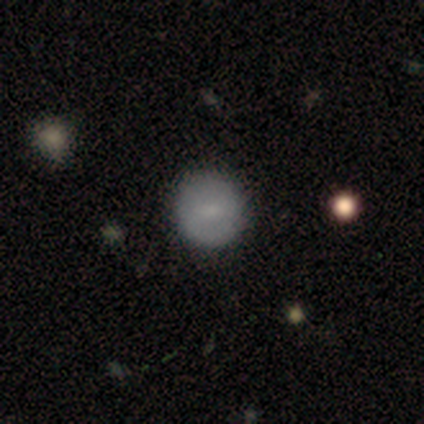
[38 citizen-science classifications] This is likely a smooth galaxy (66%). How rounded: clearly round (92%). Merging: clearly none (97%).